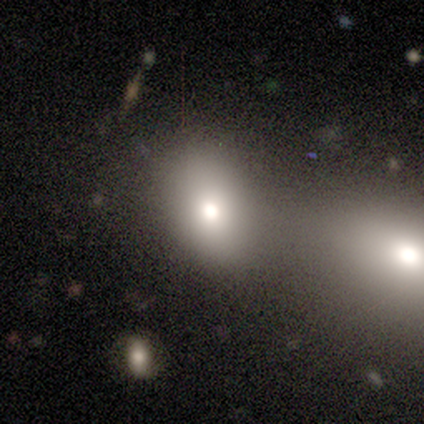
smooth_or_featured: smooth (p=0.80) [alt: featured or disk p=0.20]
how_rounded: in between (p=0.75) [alt: round p=0.25]
merging: none (p=0.60) [alt: merger p=0.40]